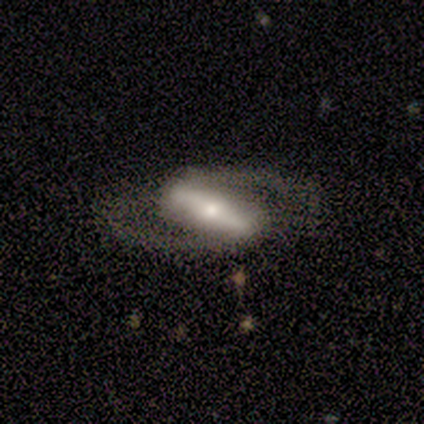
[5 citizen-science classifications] This is clearly a featured or disk galaxy (80%). It is likely not viewed edge-on (75%). Bar: clearly strong (100%). Spiral arm pattern: clearly yes (100%). Spiral arm count: clearly 2 (100%). Spiral winding: likely medium (67%). Central bulge: clearly small (100%). Merging: clearly none (100%).